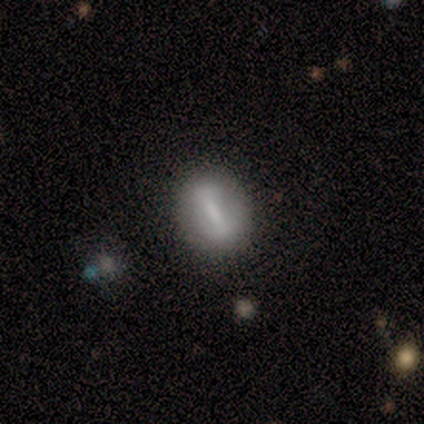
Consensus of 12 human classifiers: Volunteers were most divided on "smooth or featured": smooth: 67%, featured or disk: 33%, star or artifact: 0%. More confident: merging — none (83%); how rounded — in between (75%).